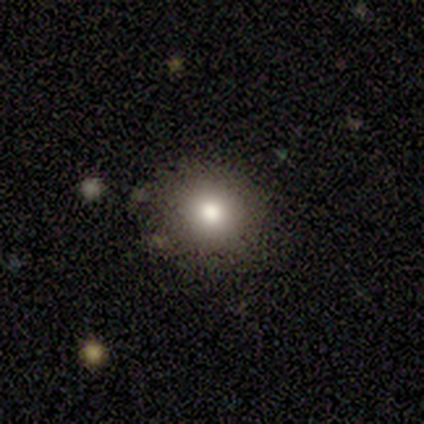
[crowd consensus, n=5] A smooth galaxy with no disk features (60%) that is round (67%).

Vote fractions:
- Smooth or featured? smooth: 60% / featured or disk: 20% / star or artifact: 20%
- How rounded? round: 67% / in between: 33% / cigar-shaped: 0%
- Merging? none: 100% / minor disturbance: 0% / major disturbance: 0% / merger: 0%